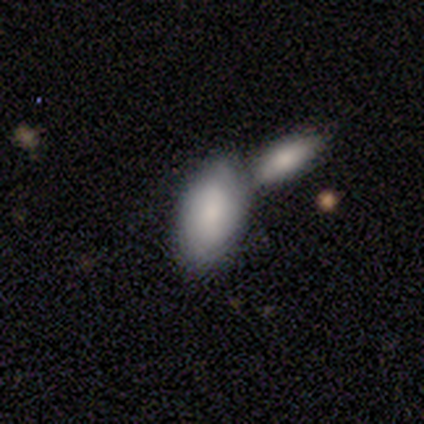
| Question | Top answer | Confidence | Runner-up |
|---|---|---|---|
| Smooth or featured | smooth | 82% | star or artifact (11%) |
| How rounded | in between | 97% | cigar-shaped (3%) |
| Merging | merger | 62% | none (26%) |